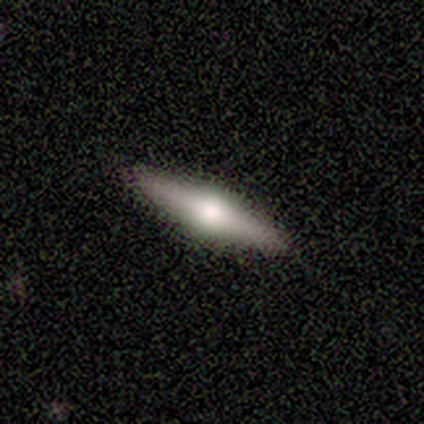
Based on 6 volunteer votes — Volunteers were most divided on "smooth or featured": featured or disk: 83%, smooth: 17%, star or artifact: 0%. More confident: edge-on disk — yes (100%); edge-on bulge — rounded (100%); merging — none (100%).